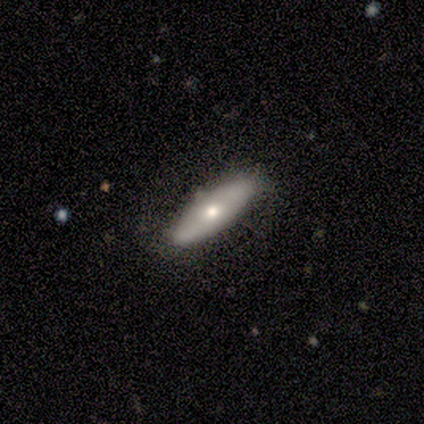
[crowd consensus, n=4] Smooth or featured: smooth — 100%
How rounded: in between — 75% (cigar-shaped — 25%)
Merging: none — 100%